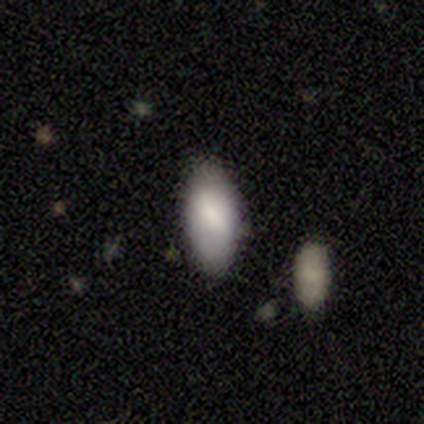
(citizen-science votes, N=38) This is clearly a smooth galaxy (87%). How rounded: clearly in between (85%). Merging: likely none (74%).